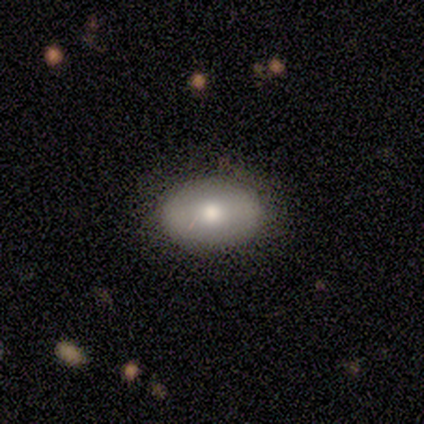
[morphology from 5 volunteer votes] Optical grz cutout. It shows a smooth galaxy with no disk features (60%) that is in between round and cigar-shaped (100%). Merging: none (60%).